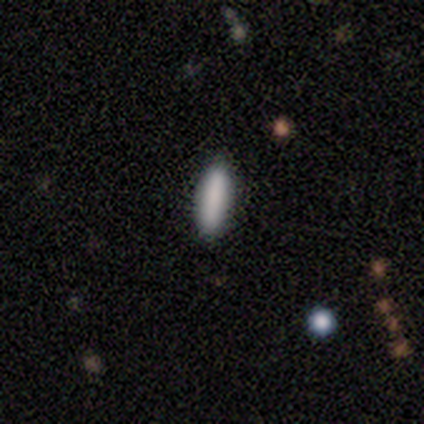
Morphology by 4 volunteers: smooth-or-featured: smooth: 75% | featured or disk: 25% | star or artifact: 0%
  how-rounded: in between: 67% | cigar-shaped: 33% | round: 0%
  merging: none: 75% | major disturbance: 25% | minor disturbance: 0% | merger: 0%